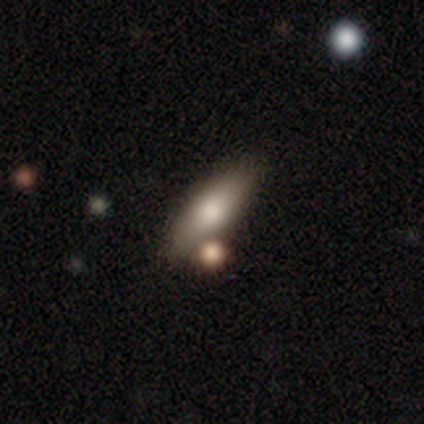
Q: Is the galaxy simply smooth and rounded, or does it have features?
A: smooth — 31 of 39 (79%).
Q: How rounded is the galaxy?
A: in between — 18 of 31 (58%).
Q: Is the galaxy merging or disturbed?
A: none — 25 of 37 (68%).